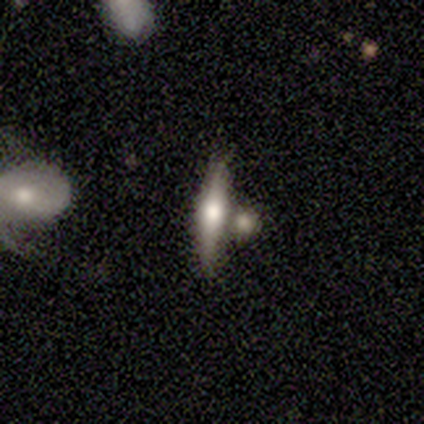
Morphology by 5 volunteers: Smooth or featured?
  - featured or disk: 60% *
  - smooth: 40%
  - star or artifact: 0%
Edge-on disk?
  - yes: 100% *
  - no: 0%
Edge-on bulge?
  - rounded: 67% *
  - none: 33%
  - boxy: 0%
Merging?
  - none: 60% *
  - merger: 40%
  - minor disturbance: 0%
  - major disturbance: 0%